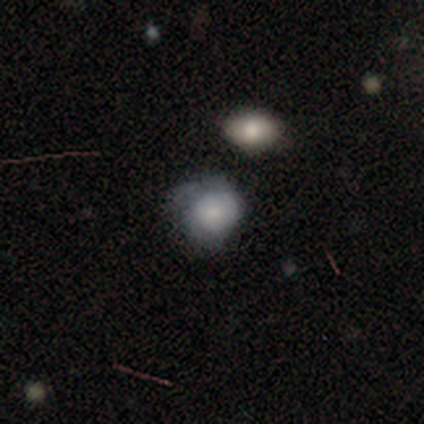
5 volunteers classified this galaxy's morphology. Smooth or featured?
  - smooth: 80% *
  - featured or disk: 20%
  - star or artifact: 0%
How rounded?
  - round: 100% *
  - in between: 0%
  - cigar-shaped: 0%
Merging?
  - minor disturbance: 60% *
  - merger: 40%
  - none: 0%
  - major disturbance: 0%